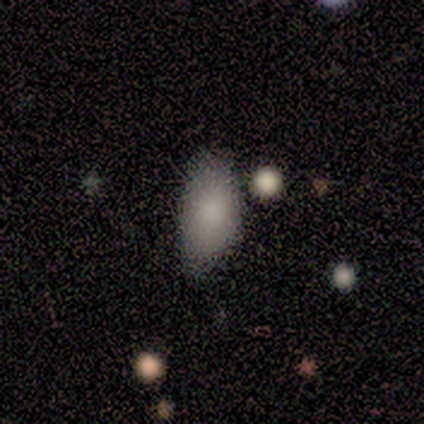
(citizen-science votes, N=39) A smooth galaxy with no disk features (87%) that is in between round and cigar-shaped (97%). Merging: none (61%).